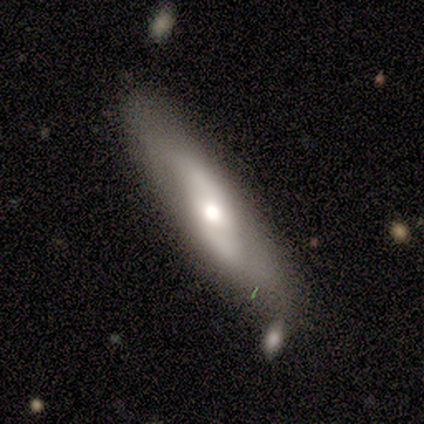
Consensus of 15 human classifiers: This is likely a featured or disk galaxy (67%). It is clearly not viewed edge-on (90%). Bar: possibly no (56%). Spiral arm pattern: likely yes (67%). Spiral arm count: clearly 2 (83%). Spiral winding: marginally tight (33%, tied with medium and loose). Central bulge: possibly moderate (56%). Merging: clearly none (93%).